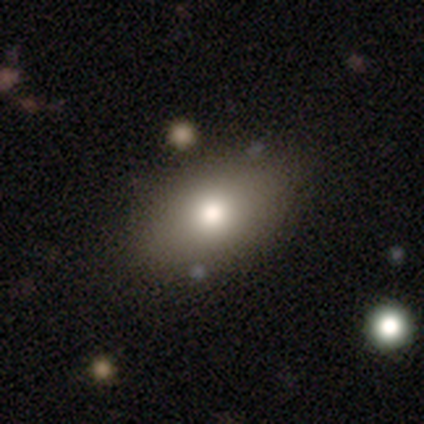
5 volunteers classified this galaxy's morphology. smooth 60%, featured or disk 20%, star or artifact 20%. Down the decision tree: how rounded — in between (67%); merging — none (75%).